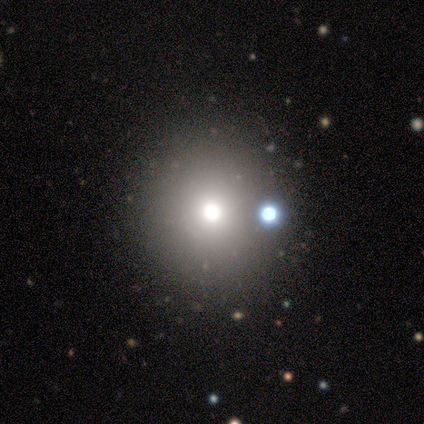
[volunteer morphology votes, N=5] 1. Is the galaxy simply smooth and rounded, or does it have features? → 40% featured or disk (tied), 40% star or artifact (tied), 20% smooth.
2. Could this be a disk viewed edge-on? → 100% no, 0% yes.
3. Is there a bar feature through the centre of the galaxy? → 100% no, 0% strong, 0% weak.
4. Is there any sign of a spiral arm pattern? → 100% no, 0% yes.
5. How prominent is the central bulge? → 100% moderate, 0% dominant, 0% large, 0% small, 0% none.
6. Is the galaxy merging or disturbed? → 100% none, 0% minor disturbance, 0% major disturbance, 0% merger.